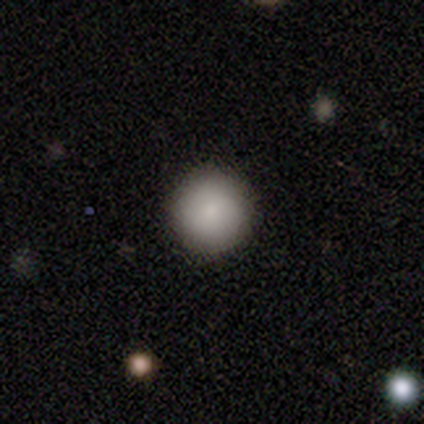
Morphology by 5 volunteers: Smooth or featured?
  - smooth: 100% *
  - featured or disk: 0%
  - star or artifact: 0%
How rounded?
  - round: 100% *
  - in between: 0%
  - cigar-shaped: 0%
Merging?
  - none: 100% *
  - minor disturbance: 0%
  - major disturbance: 0%
  - merger: 0%